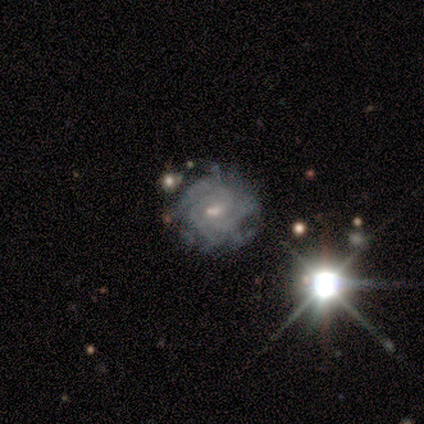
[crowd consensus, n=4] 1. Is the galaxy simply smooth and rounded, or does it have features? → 50% star or artifact, 25% smooth, 25% featured or disk.